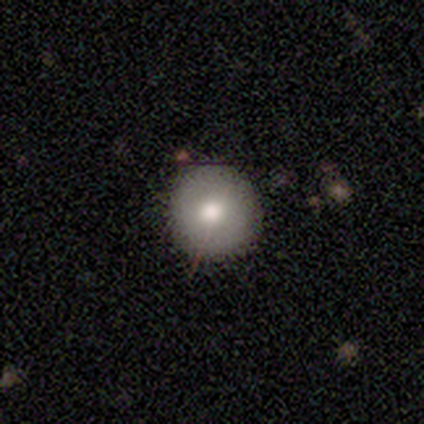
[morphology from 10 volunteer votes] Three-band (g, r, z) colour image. It shows a smooth galaxy with no disk features (100%) that is round (90%). Merging: none (80%).